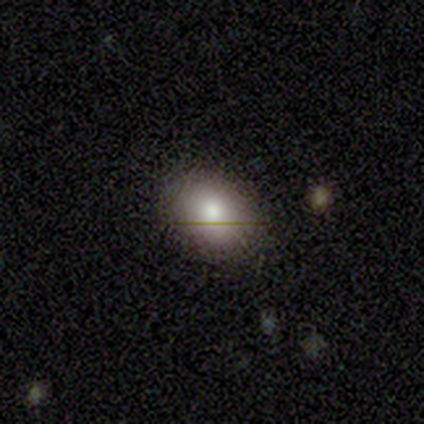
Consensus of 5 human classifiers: Overall: smooth (100%). How rounded: in between (80%). Merging: none (80%).